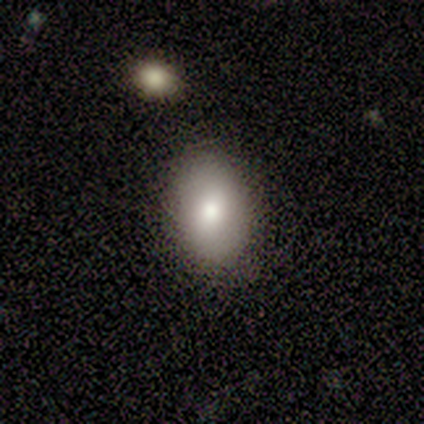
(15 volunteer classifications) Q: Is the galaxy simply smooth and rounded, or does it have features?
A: smooth — 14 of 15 (93%).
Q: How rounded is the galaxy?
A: in between — 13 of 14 (93%).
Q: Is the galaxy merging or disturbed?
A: none — 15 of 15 (100%).